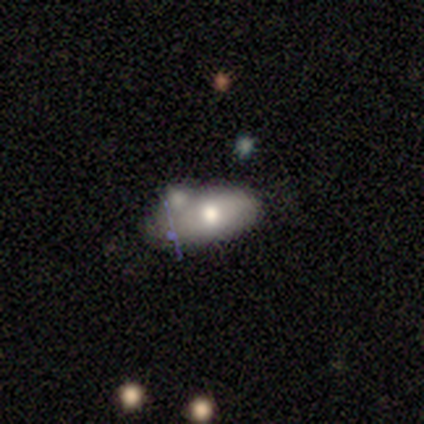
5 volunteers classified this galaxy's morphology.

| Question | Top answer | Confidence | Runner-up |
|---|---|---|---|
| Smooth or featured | smooth | 60% | featured or disk (20%) |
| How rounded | in between | 67% | cigar-shaped (33%) |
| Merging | merger | 50% | none (25%) |